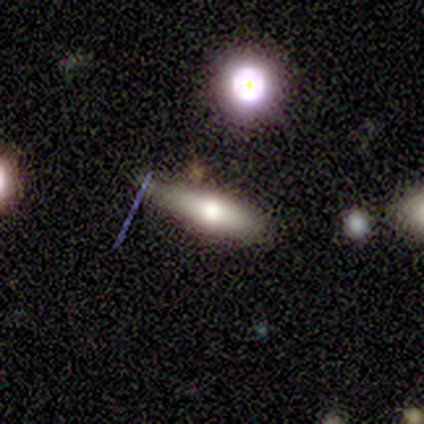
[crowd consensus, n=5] smooth_or_featured: featured or disk (p=0.40) [tied with: star or artifact p=0.40]
disk_edge_on: yes (p=1.00)
edge_on_bulge: none (p=0.50) [tied with: rounded p=0.50]
merging: minor disturbance (p=0.67) [alt: none p=0.33]